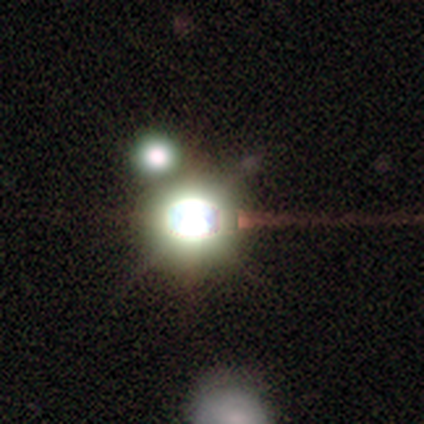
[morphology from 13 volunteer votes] smooth_or_featured: star or artifact (p=0.92) [alt: featured or disk p=0.08]